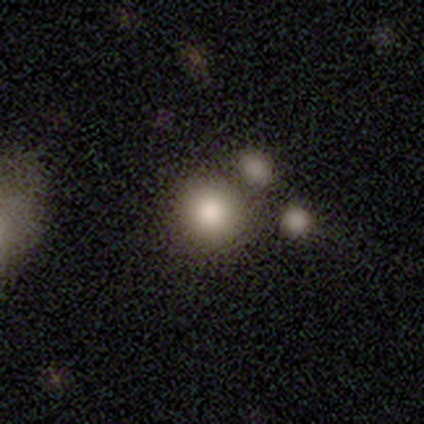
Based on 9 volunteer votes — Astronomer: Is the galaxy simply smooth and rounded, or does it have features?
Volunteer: smooth — 67%.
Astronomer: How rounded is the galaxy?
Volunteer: round — 100%.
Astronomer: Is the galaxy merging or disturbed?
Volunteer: none — 88%.